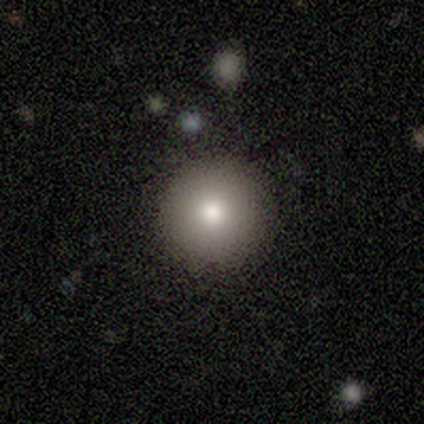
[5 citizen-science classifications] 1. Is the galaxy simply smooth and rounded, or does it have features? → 80% smooth, 20% featured or disk, 0% star or artifact.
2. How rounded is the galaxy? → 100% round, 0% in between, 0% cigar-shaped.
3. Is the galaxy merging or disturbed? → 80% none, 20% merger, 0% minor disturbance, 0% major disturbance.